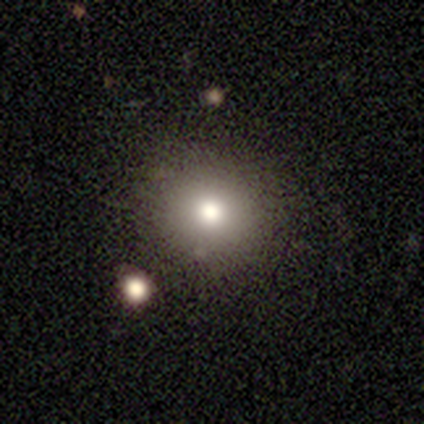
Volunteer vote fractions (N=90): Volunteers were most divided on "smooth or featured": smooth: 67%, star or artifact: 23%, featured or disk: 10%. More confident: how rounded — round (93%); merging — none (86%).